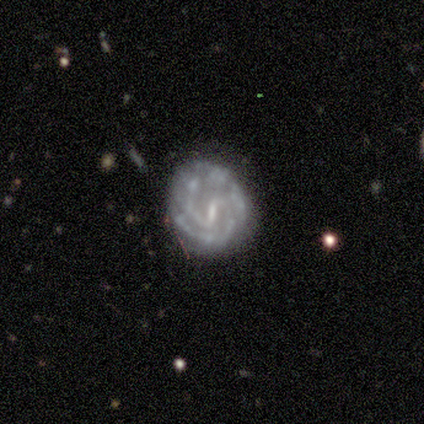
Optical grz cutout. It shows a featured or disk galaxy (100%) with a weak bar (67%), 2 (100%) tight (50%, tied with medium) spiral arms (67%) and a small central bulge (67%). Merging: minor disturbance (67%).